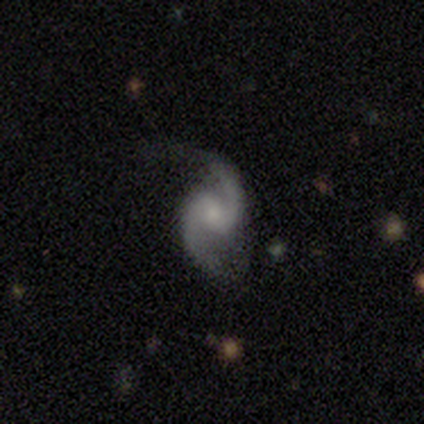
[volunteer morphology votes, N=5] Smooth or featured? 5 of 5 (100%) said featured or disk. Edge-on disk? 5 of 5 (100%) said no. Bar? 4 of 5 (80%) said weak. Spiral arms? 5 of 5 (100%) said yes. Spiral winding? 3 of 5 (60%) said medium. Spiral arm count? 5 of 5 (100%) said 2. Bulge size? 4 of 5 (80%) said small. Merging? 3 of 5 (60%) said none.